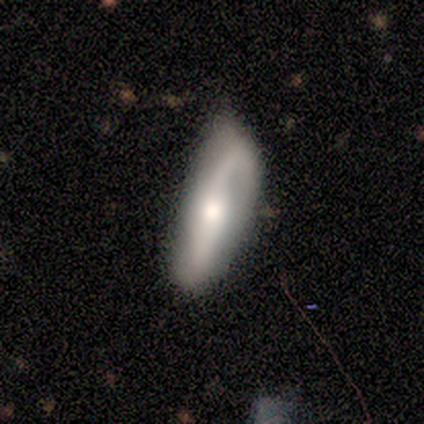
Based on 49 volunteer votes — Smooth or featured: featured or disk — 57% (smooth — 39%)
Edge-on disk: no — 82% (yes — 18%)
Bar: no — 61% (strong — 30%)
Spiral arms: yes — 96% (no — 4%)
Spiral winding: loose — 64% (medium — 23%)
Spiral arm count: 2 — 77% (1 — 14%)
Bulge size: moderate — 65% (large — 17%)
Merging: none — 62% (minor disturbance — 19%)